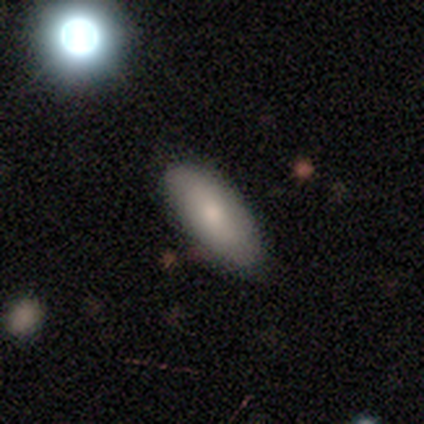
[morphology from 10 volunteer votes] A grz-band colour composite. It shows a smooth galaxy with no disk features (100%) that is in between round and cigar-shaped (80%). Merging: none (90%).